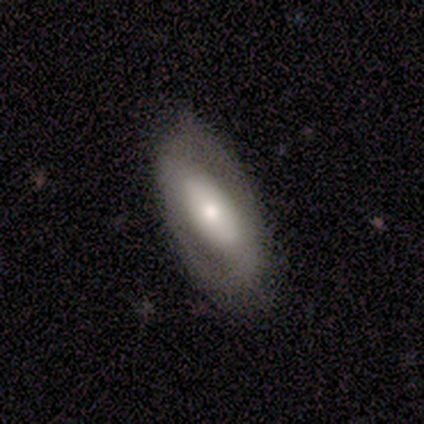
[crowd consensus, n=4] Smooth or featured? featured or disk (100%)
Edge-on disk? no (100%)
Bar? weak (75%)
Spiral arms? yes (75%)
Spiral winding? medium (67%)
Spiral arm count? 2 (100%)
Bulge size? moderate (50%)
Merging? none (100%)